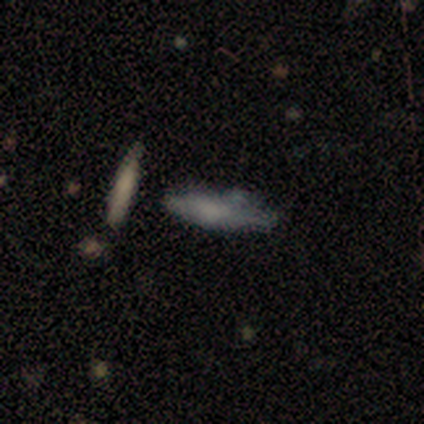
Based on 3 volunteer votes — This is clearly a smooth galaxy (100%). How rounded: clearly cigar-shaped (100%). Merging: likely minor disturbance (67%).